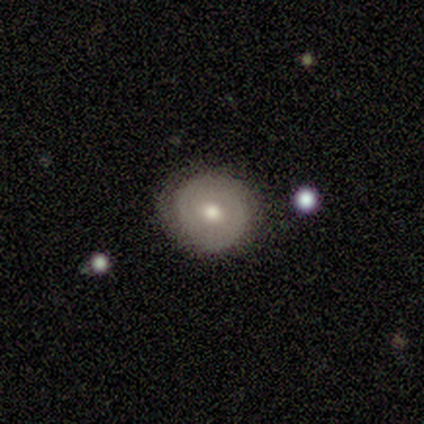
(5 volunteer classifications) smooth 80%, star or artifact 20%, featured or disk 0%. Down the decision tree: how rounded — round (75%); merging — none (100%).